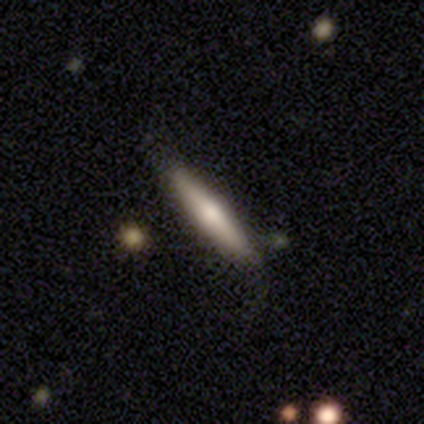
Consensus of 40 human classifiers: Smooth or featured? 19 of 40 (48%) said featured or disk. Edge-on disk? 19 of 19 (100%) said yes. Edge-on bulge? 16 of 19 (84%) said rounded. Merging? 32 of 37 (86%) said none.